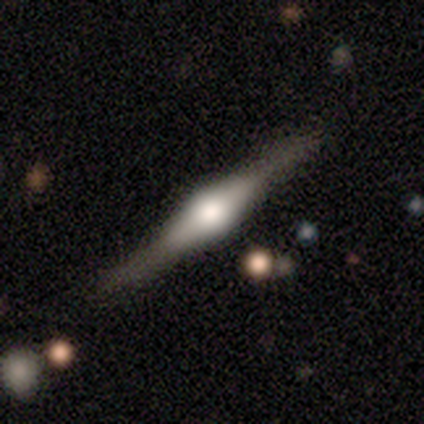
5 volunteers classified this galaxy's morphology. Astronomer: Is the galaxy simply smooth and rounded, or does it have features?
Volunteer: featured or disk — 100%.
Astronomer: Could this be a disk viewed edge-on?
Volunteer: yes — 100%.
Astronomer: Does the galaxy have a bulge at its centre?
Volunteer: rounded — 80%.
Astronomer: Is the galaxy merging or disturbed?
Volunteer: none — 100%.